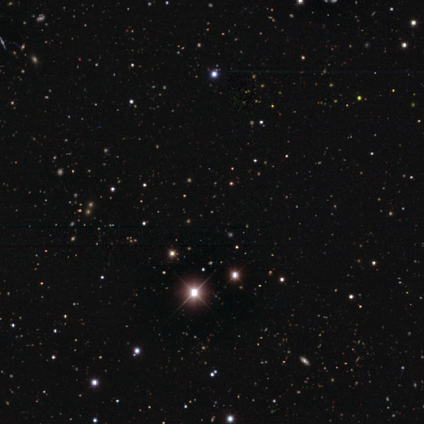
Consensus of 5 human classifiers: A star or artifact, not a galaxy (100%).

Vote fractions:
- Smooth or featured? star or artifact: 100% / smooth: 0% / featured or disk: 0%